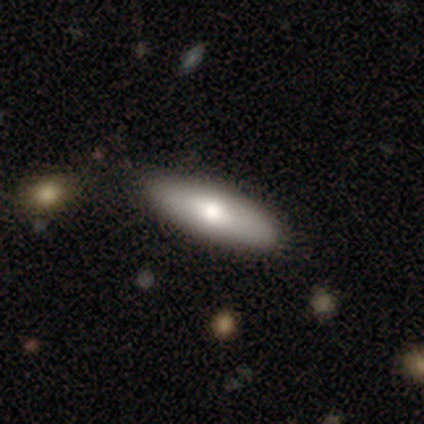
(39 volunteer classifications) smooth-or-featured: smooth: 64% | featured or disk: 33% | star or artifact: 3%
  how-rounded: in between: 72% | cigar-shaped: 28% | round: 0%
  merging: none: 66% | minor disturbance: 11% | merger: 8% | major disturbance: 0%